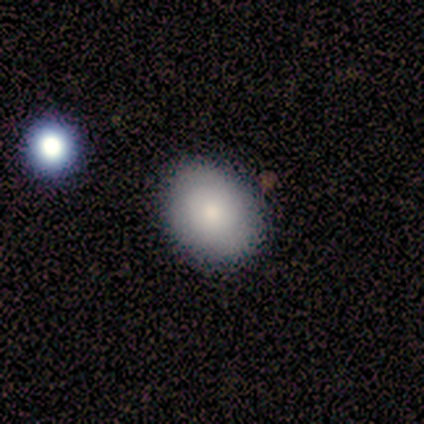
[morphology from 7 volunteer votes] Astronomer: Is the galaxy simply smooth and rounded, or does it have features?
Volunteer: smooth — 71%.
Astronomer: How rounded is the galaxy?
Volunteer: in between — 80%.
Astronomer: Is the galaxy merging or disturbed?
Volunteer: none — 83%.